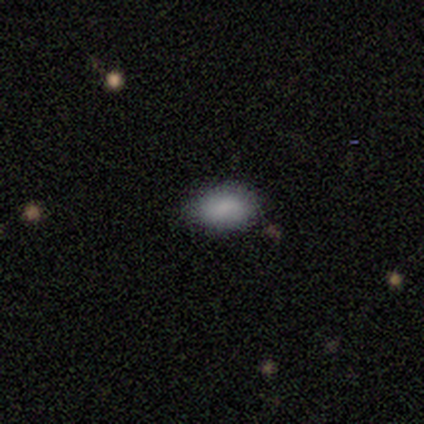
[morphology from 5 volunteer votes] Smooth or featured? 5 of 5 (100%) said smooth. How rounded? 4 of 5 (80%) said in between. Merging? 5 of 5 (100%) said none.